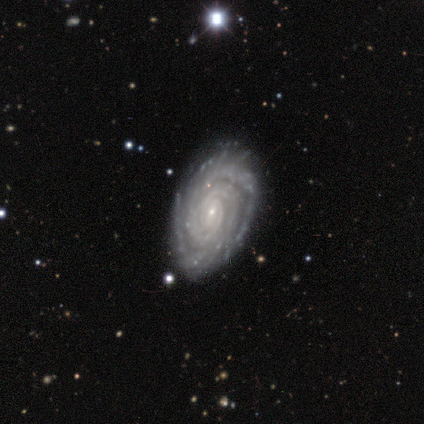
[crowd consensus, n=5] Volunteers were most divided on "bar": weak: 60%, no: 40%, strong: 0%. More confident: smooth or featured — featured or disk (100%); edge-on disk — no (100%); spiral arms — yes (100%); spiral winding — tight (100%); merging — none (100%); spiral arm count — 2 (80%); bulge size — small (80%).